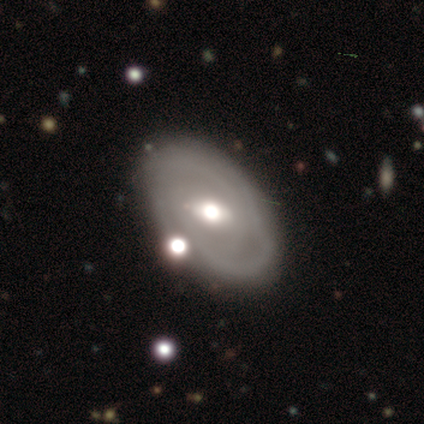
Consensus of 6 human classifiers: featured or disk 83%, smooth 17%, star or artifact 0%. Down the decision tree: edge-on disk — no (100%); bar — strong (40%, tied with weak); spiral arms — no (60%); bulge size — moderate (80%); merging — none (83%).